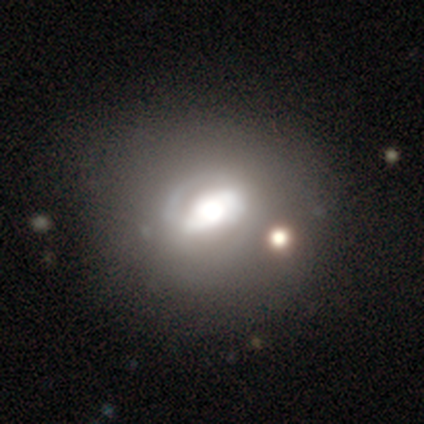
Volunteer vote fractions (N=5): Smooth or featured? featured or disk (80%)
Edge-on disk? no (75%)
Bar? strong (67%)
Spiral arms? yes (100%)
Spiral winding? loose (67%)
Spiral arm count? 2 (67%)
Bulge size? dominant (100%)
Merging? none (40%, tied with minor disturbance)